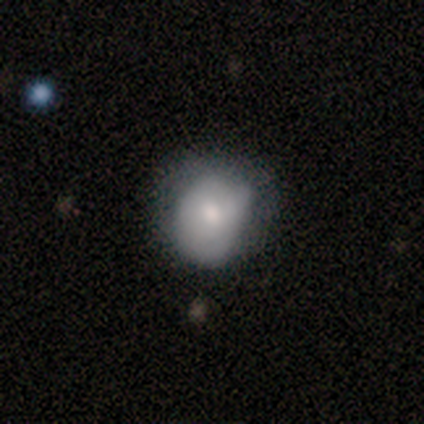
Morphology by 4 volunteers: A smooth galaxy with no disk features (50%, tied with featured or disk) that is round (50%, tied with in between). Merging: minor disturbance (50%).